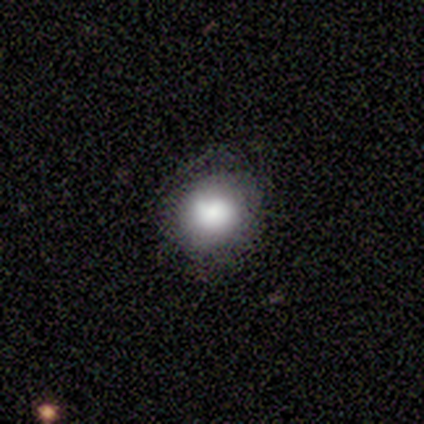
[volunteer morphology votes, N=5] Smooth or featured? smooth (100%)
How rounded? round (80%)
Merging? none (100%)